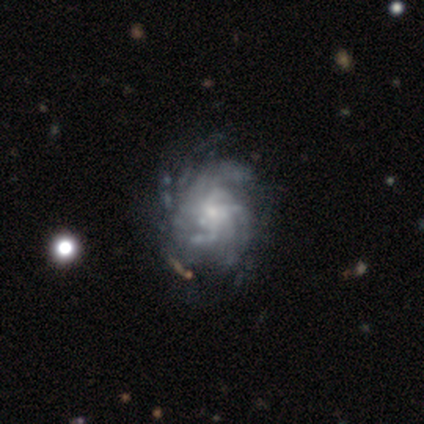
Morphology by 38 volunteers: Overall: featured or disk (100%). Edge-on disk: no (97%). Bar: no (84%). Spiral arms: yes (97%). Spiral arm count: can't tell (47%; more than 4 31%). Spiral winding: tight (44%; medium 28%). Bulge size: small (65%; moderate 30%). Merging: none (37%; minor disturbance 29%).